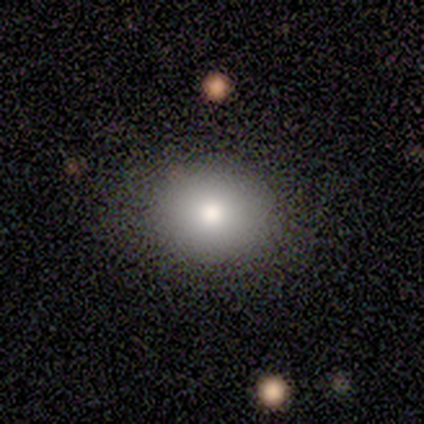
Smooth or featured? 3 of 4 (75%) said smooth. How rounded? 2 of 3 (67%) said in between. Merging? 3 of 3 (100%) said none.